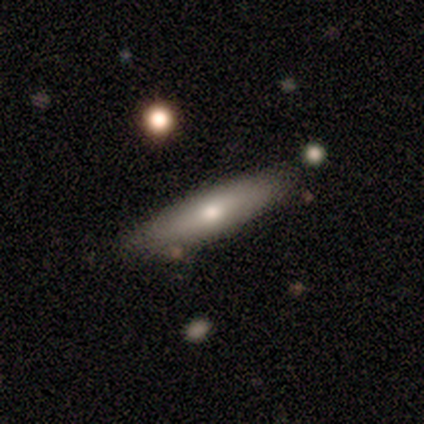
This appears to be a smooth galaxy with no disk features (60%) that is cigar-shaped (100%). Merging: none (75%).